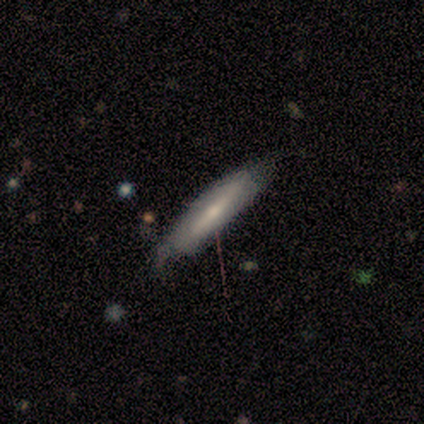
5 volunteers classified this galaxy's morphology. smooth-or-featured: featured or disk: 60% | smooth: 40% | star or artifact: 0%
  disk-edge-on: no: 67% | yes: 33%
    bar: strong: 100% | weak: 0% | no: 0%
    has-spiral-arms: no: 100% | yes: 0%
    bulge-size: dominant: 50% (tied) | small: 50% (tied) | large: 0% | moderate: 0% | none: 0%
  merging: minor disturbance: 60% | none: 20% | merger: 20% | major disturbance: 0%